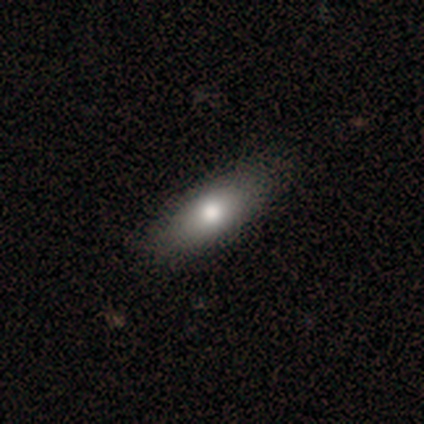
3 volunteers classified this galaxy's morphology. Q: Smooth or featured?
A: smooth (67%); runner-up: star or artifact (33%)
Q: How rounded?
A: in between (100%)
Q: Merging?
A: none (50%); tied with: merger (50%)